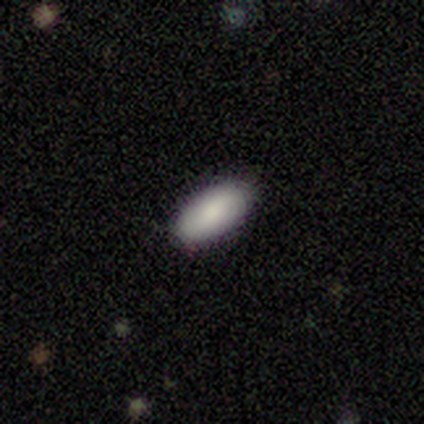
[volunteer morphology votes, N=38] Volunteers were most divided on "smooth or featured": smooth: 87%, featured or disk: 8%, star or artifact: 5%. More confident: merging — none (94%); how rounded — in between (91%).